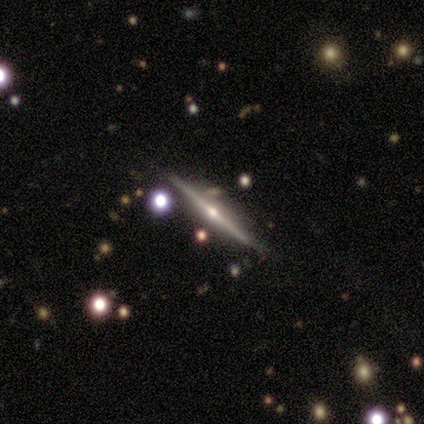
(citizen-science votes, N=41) featured or disk 88%, star or artifact 10%, smooth 2%. Down the decision tree: edge-on disk — yes (100%); edge-on bulge — rounded (94%); merging — none (70%).